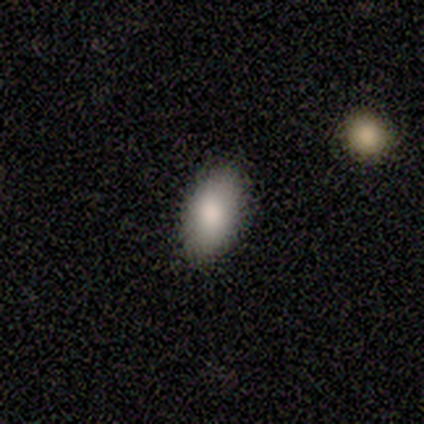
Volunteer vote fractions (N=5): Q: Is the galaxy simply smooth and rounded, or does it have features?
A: smooth — 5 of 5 (100%).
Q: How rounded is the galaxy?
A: in between — 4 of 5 (80%).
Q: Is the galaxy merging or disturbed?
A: none — 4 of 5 (80%).